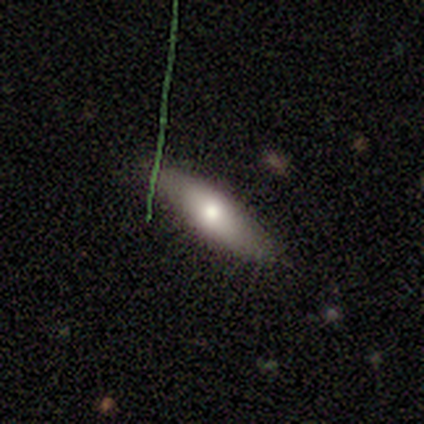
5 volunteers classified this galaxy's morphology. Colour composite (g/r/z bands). It shows a smooth galaxy with no disk features (60%) that is in between round and cigar-shaped (67%). Merging: none (100%).